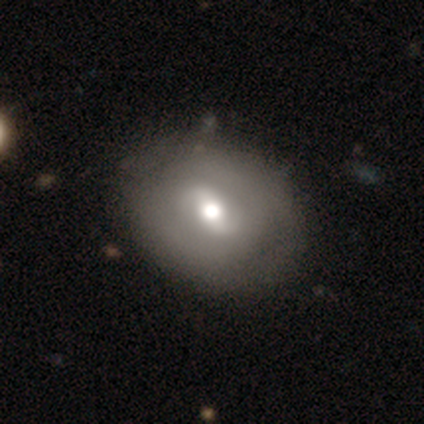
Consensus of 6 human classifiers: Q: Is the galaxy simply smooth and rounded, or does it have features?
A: featured or disk — 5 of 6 (83%).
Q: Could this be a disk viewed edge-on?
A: no — 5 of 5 (100%).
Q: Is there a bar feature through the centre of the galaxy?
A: weak — 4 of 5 (80%).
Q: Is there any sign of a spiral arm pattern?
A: yes — 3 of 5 (60%).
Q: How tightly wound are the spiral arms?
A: tight — 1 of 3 (33%, tied with medium and loose).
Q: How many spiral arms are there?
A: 2 — 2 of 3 (67%).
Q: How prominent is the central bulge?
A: moderate — 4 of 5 (80%).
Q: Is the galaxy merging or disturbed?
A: none — 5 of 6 (83%).